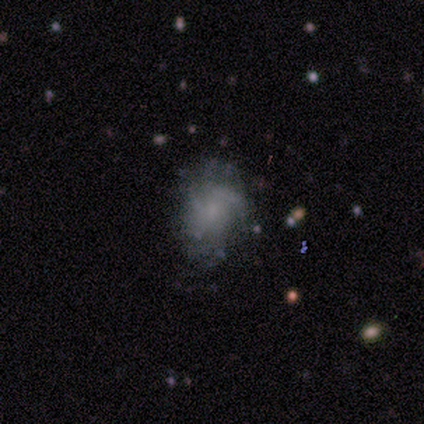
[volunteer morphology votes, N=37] Smooth or featured: featured or disk — 65% (smooth — 32%)
Edge-on disk: no — 100%
Bar: no — 75% (weak — 25%)
Spiral arms: yes — 67% (no — 33%)
Spiral winding: medium — 44% (loose — 31%)
Spiral arm count: can't tell — 38% (3 — 25%)
Bulge size: small — 46% (tied with none — 46%)
Merging: none — 64% (minor disturbance — 22%)